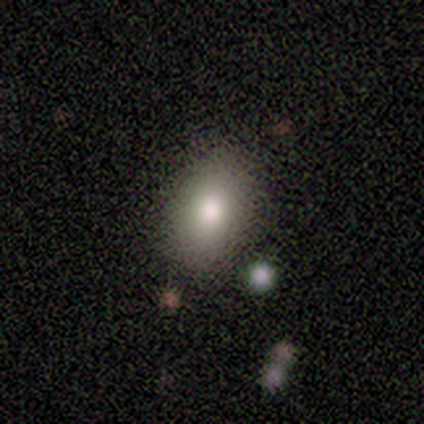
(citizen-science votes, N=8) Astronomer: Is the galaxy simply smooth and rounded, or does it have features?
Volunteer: smooth — 88%.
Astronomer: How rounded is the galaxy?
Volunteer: in between — 100%.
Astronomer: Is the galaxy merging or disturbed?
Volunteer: none — 100%.